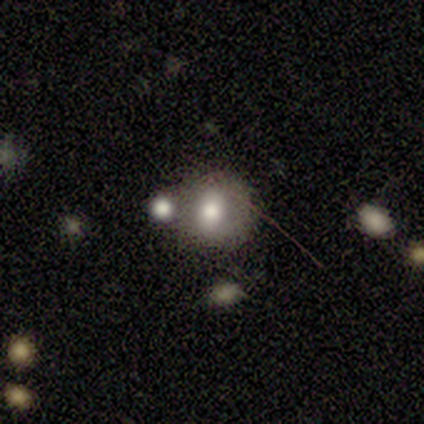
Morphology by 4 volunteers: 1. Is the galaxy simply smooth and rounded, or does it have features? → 100% smooth, 0% featured or disk, 0% star or artifact.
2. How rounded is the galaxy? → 50% round (tied), 50% in between (tied), 0% cigar-shaped.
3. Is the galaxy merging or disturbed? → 25% none (tied), 25% minor disturbance (tied), 25% major disturbance (tied), 25% merger (tied).